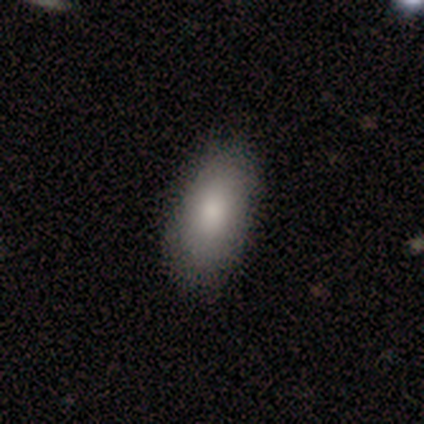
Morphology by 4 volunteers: A smooth galaxy with no disk features (75%) that is in between round and cigar-shaped (100%).

Vote fractions:
- Smooth or featured? smooth: 75% / featured or disk: 25% / star or artifact: 0%
- How rounded? in between: 100% / round: 0% / cigar-shaped: 0%
- Merging? none: 100% / minor disturbance: 0% / major disturbance: 0% / merger: 0%